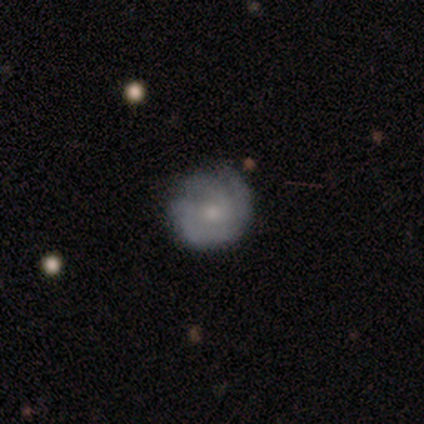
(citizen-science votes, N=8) Overall: featured or disk (75%). Edge-on disk: no (100%). Bar: no (67%; weak 33%). Spiral arms: yes (100%). Spiral arm count: 3 (33%, tied with can't tell). Spiral winding: tight (50%; loose 33%). Bulge size: small (83%). Merging: none (75%).